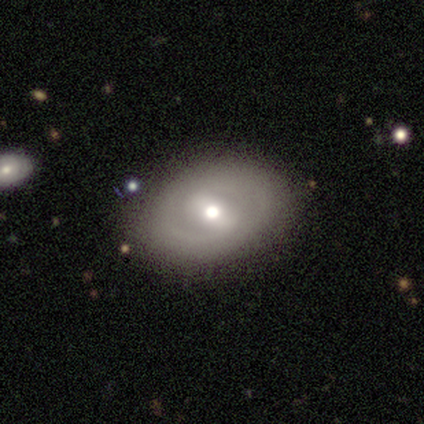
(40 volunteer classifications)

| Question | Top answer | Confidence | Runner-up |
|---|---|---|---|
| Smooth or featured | featured or disk | 60% | smooth (38%) |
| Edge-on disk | no | 92% | yes (8%) |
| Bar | strong | 45% | weak (32%) |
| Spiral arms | yes | 50% | tied: no (50%) |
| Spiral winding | medium | 64% | tight (18%) |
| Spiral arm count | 2 | 73% | can't tell (27%) |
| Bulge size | moderate | 68% | small (18%) |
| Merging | none | 79% | minor disturbance (10%) |